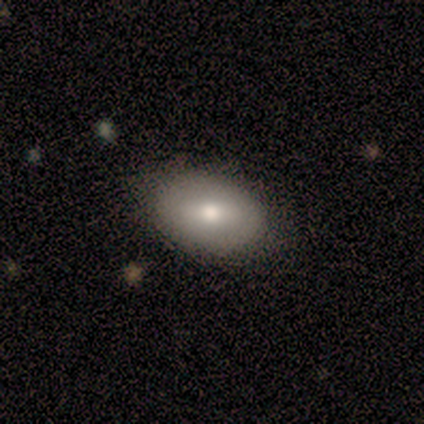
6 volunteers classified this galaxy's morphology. A smooth galaxy with no disk features (83%) that is in between round and cigar-shaped (100%). Merging: none (83%).